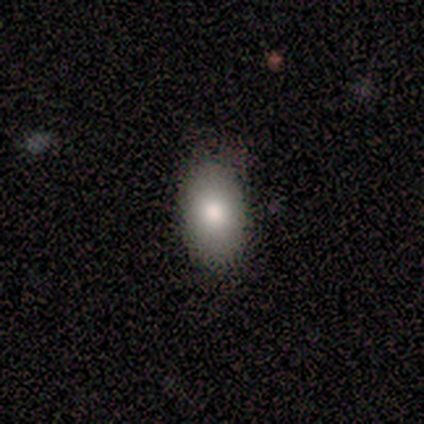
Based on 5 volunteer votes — A smooth galaxy with no disk features (80%) that is in between round and cigar-shaped (100%). Merging: none (100%).